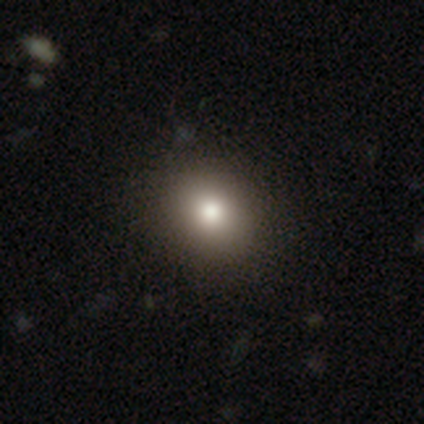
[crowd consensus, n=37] This is clearly a smooth galaxy (86%). How rounded: possibly in between (53%). Merging: possibly none (50%).